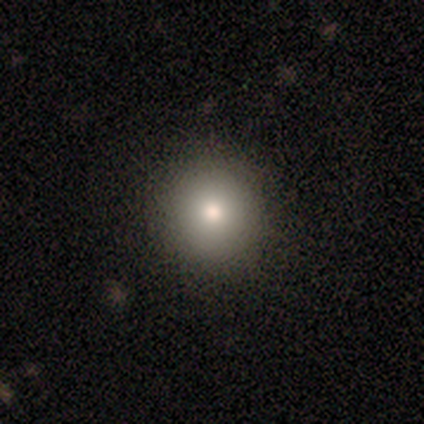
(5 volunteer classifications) Morphology: type=smooth (40%, tied with featured or disk); roundness=round (100%); merging=none (100%).